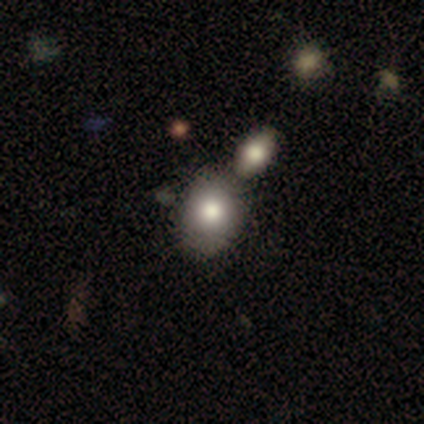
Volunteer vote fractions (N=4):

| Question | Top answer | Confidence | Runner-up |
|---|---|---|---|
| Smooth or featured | smooth | 50% | tied: featured or disk (50%) |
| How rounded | round | 50% | tied: in between (50%) |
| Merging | none | 50% | tied: merger (50%) |